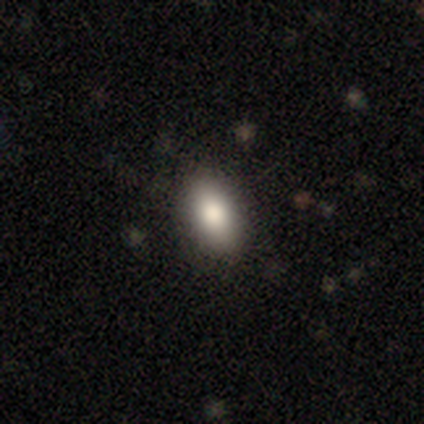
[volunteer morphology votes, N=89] smooth 80%, star or artifact 13%, featured or disk 7%. Down the decision tree: how rounded — in between (89%); merging — none (81%).